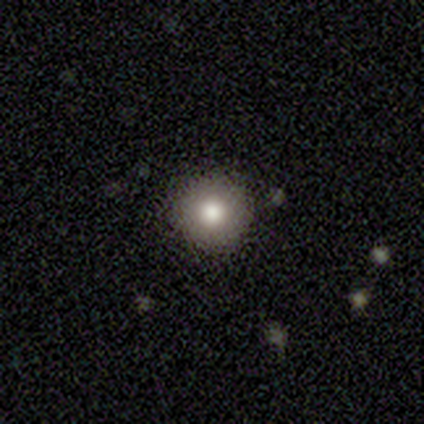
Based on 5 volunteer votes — Smooth or featured? 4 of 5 (80%) said smooth. How rounded? 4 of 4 (100%) said round. Merging? 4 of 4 (100%) said none.